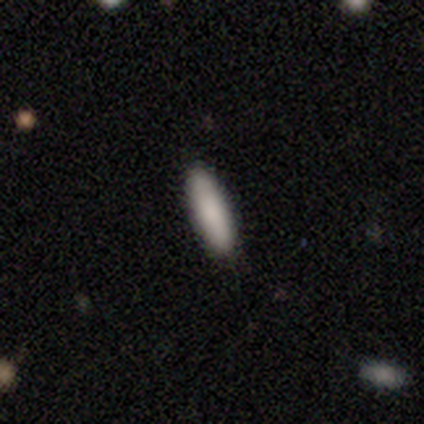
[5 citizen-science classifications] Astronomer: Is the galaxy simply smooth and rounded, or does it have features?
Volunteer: smooth — 80%.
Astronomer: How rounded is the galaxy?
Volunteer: cigar-shaped — 75%.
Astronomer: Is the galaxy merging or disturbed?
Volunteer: none — 100%.